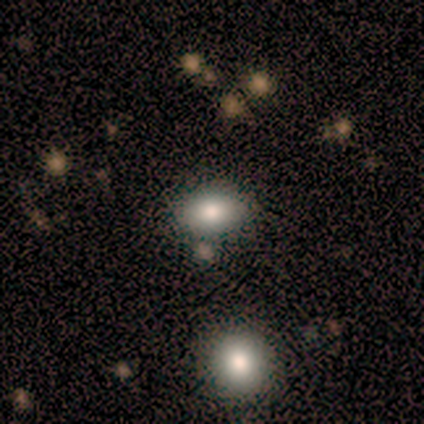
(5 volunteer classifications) This is clearly a smooth galaxy (100%). How rounded: clearly in between (80%). Merging: likely none (60%).